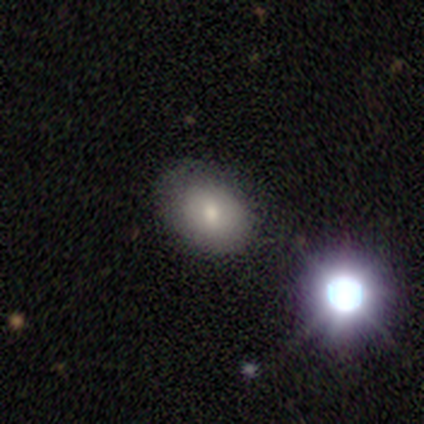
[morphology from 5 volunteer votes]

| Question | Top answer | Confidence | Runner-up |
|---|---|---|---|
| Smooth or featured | smooth | 80% | featured or disk (20%) |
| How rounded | in between | 75% | round (25%) |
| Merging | none | 100% | — |